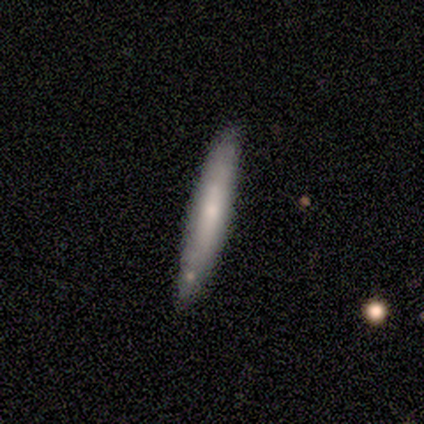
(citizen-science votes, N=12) Smooth or featured? 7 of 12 (58%) said smooth. How rounded? 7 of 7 (100%) said cigar-shaped. Merging? 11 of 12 (92%) said none.